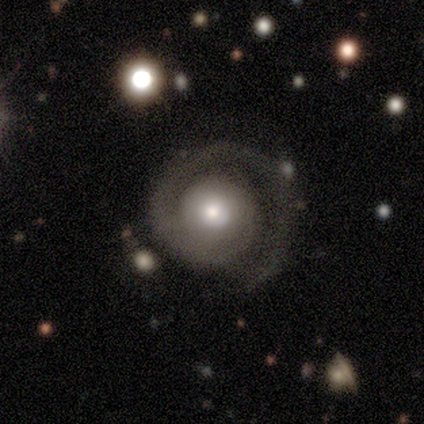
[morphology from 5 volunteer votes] A featured or disk galaxy (80%) with no bar (100%), 1 (100%) medium (75%) spiral arms (100%) and a large central bulge (50%, tied with moderate). Merging: none (40%, tied with major disturbance).